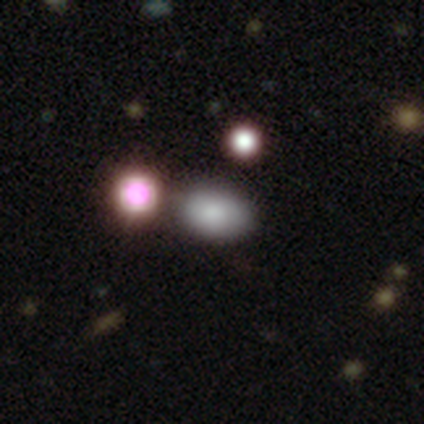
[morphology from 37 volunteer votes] Smooth or featured: smooth — 78% (featured or disk — 16%)
How rounded: in between — 90% (round — 10%)
Merging: none — 71% (minor disturbance — 11%)